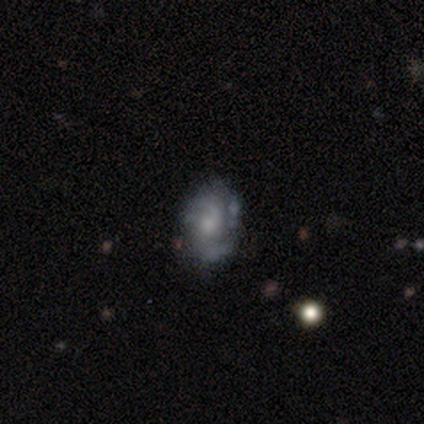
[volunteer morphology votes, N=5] A featured or disk galaxy (100%) with no bar (80%), 1 (40%, tied with 2) tight (40%, tied with loose) spiral arms (100%) and a small central bulge (80%). Merging: none (80%).